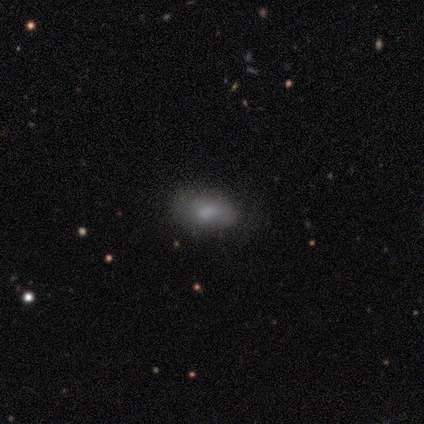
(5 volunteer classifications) smooth_or_featured: smooth (p=0.80) [alt: featured or disk p=0.20]
how_rounded: in between (p=1.00)
merging: none (p=0.40) [tied with: minor disturbance p=0.40]